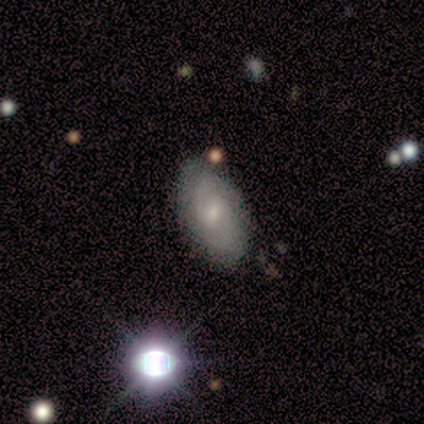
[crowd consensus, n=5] Smooth or featured?
  - featured or disk: 80% *
  - smooth: 20%
  - star or artifact: 0%
Edge-on disk?
  - no: 100% *
  - yes: 0%
Bar?
  - weak: 75% *
  - no: 25%
  - strong: 0%
Spiral arms?
  - yes: 100% *
  - no: 0%
Spiral winding?
  - tight: 50% *
  - medium: 25%
  - loose: 25%
Spiral arm count?
  - 2: 50% *
  - 1: 25%
  - can't tell: 25%
  - 3: 0%
  - 4: 0%
  - more than 4: 0%
Bulge size?
  - moderate: 75% *
  - small: 25%
  - dominant: 0%
  - large: 0%
  - none: 0%
Merging?
  - none: 100% *
  - minor disturbance: 0%
  - major disturbance: 0%
  - merger: 0%